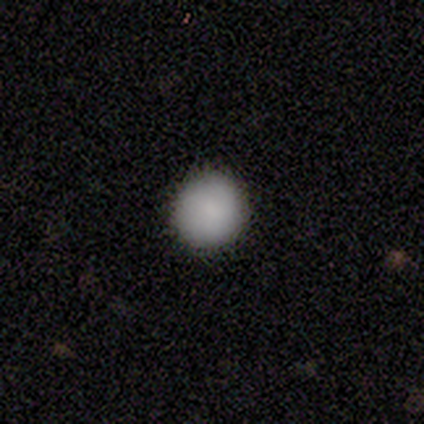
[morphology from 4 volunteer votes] smooth_or_featured: smooth (p=0.50) [alt: featured or disk p=0.25]
how_rounded: round (p=1.00)
merging: none (p=1.00)